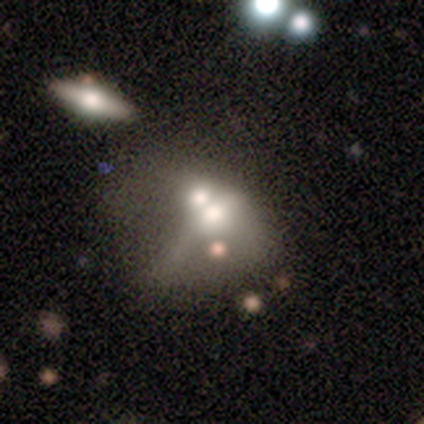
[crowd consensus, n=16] Q: Smooth or featured?
A: smooth (56%); runner-up: star or artifact (31%)
Q: How rounded?
A: in between (67%); runner-up: round (33%)
Q: Merging?
A: merger (91%); runner-up: minor disturbance (9%)